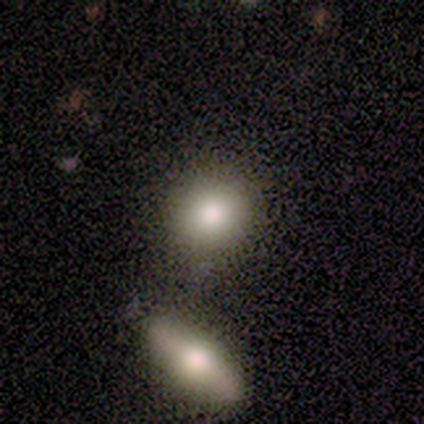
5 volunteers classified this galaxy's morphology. Overall: smooth (60%; featured or disk 20%). How rounded: round (33%, tied with in between and cigar-shaped). Merging: merger (50%; none 25%).